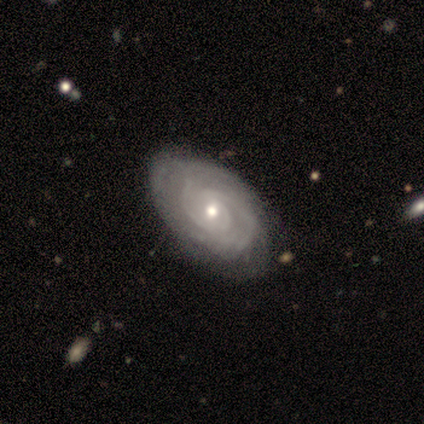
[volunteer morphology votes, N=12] A featured or disk galaxy (83%) with no bar (80%), tight (100%) spiral arms (90%) and a moderate central bulge (70%). Merging: none (64%).